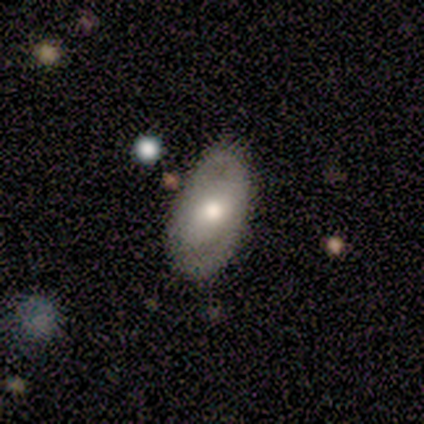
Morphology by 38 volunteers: Volunteers were most divided on "bar" (2-way tie): weak: 41%, no: 41%, strong: 18%. More confident: edge-on disk — no (89%); merging — none (70%); bulge size — moderate (59%); spiral arms — no (53%); smooth or featured — featured or disk (50%).